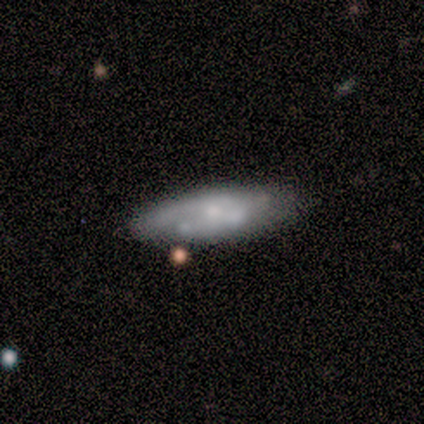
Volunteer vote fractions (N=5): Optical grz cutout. It shows a smooth galaxy with no disk features (60%) that is cigar-shaped (67%). Merging: none (60%).